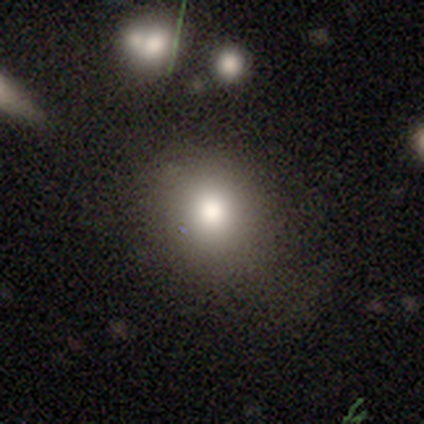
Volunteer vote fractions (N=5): Morphology: type=smooth (80%); roundness=round (50%, tied with in between); merging=none (75%).